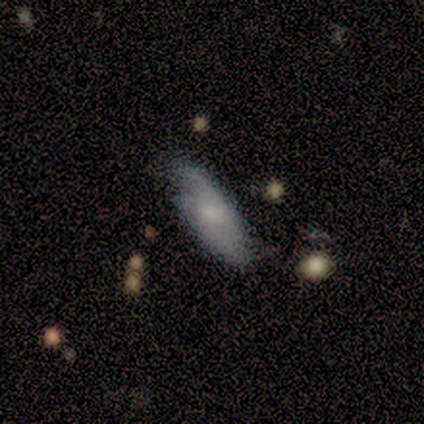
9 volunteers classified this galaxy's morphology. Smooth or featured? 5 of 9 (56%) said smooth. How rounded? 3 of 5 (60%) said cigar-shaped. Merging? 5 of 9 (56%) said none.